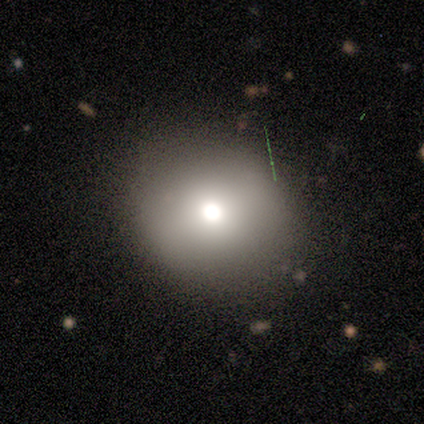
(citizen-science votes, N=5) smooth_or_featured: smooth (p=0.80) [alt: featured or disk p=0.20]
how_rounded: round (p=0.50) [tied with: in between p=0.50]
merging: none (p=1.00)